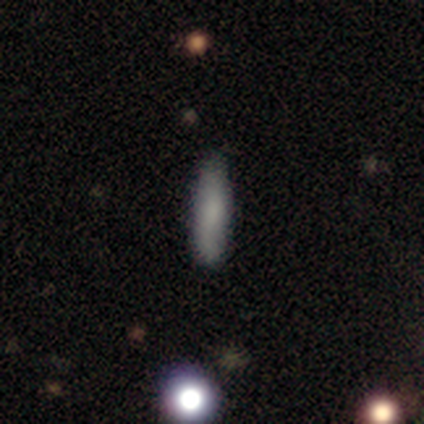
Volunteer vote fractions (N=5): Smooth or featured? 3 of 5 (60%) said smooth. How rounded? 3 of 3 (100%) said cigar-shaped. Merging? 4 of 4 (100%) said none.